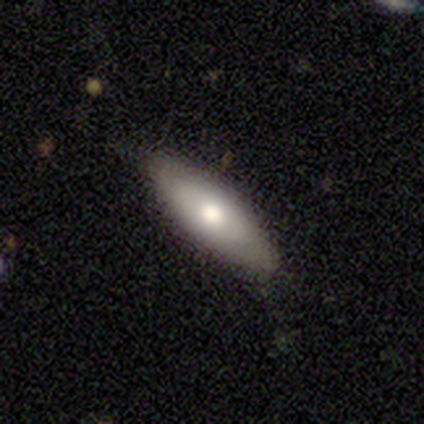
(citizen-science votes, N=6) smooth_or_featured: smooth (p=0.50) [tied with: featured or disk p=0.50]
how_rounded: in between (p=1.00)
merging: none (p=0.83) [alt: minor disturbance p=0.17]